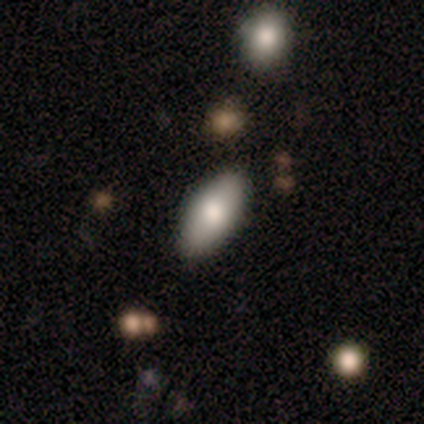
This appears to be a smooth galaxy with no disk features (75%) that is in between round and cigar-shaped (100%). Merging: none (100%).